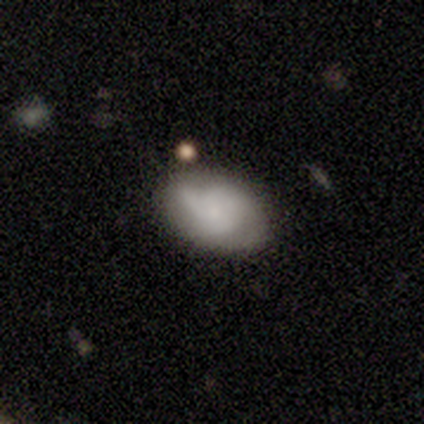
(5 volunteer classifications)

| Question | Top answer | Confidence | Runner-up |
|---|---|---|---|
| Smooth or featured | smooth | 80% | featured or disk (20%) |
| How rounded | in between | 100% | — |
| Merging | none | 60% | major disturbance (20%) |